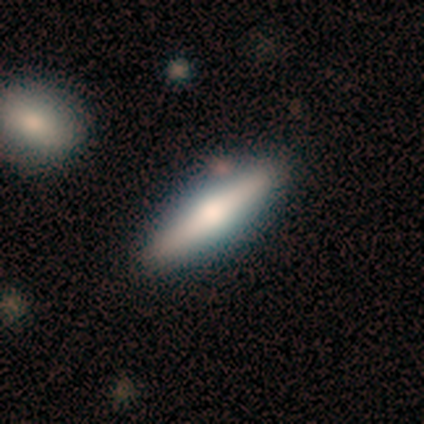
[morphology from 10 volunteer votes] This appears to be a smooth galaxy with no disk features (50%, tied with featured or disk) that is cigar-shaped (80%). Merging: none (90%).